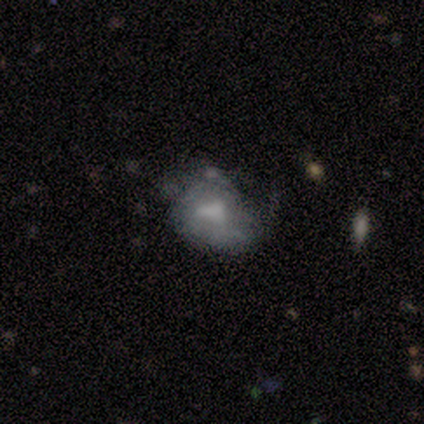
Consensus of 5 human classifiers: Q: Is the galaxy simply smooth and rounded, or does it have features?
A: smooth — 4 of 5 (80%).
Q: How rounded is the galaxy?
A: round — 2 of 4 (50%, tied with in between).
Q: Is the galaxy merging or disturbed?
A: minor disturbance — 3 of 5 (60%).